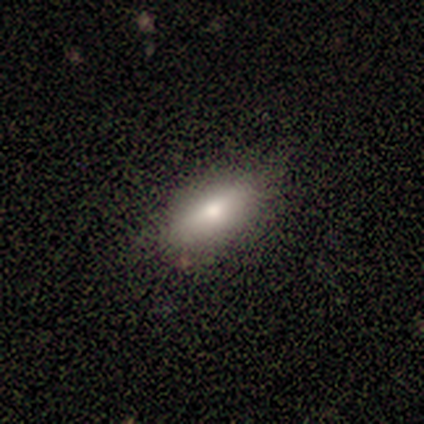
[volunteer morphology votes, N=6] Smooth or featured? 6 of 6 (100%) said smooth. How rounded? 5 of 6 (83%) said in between. Merging? 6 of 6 (100%) said none.